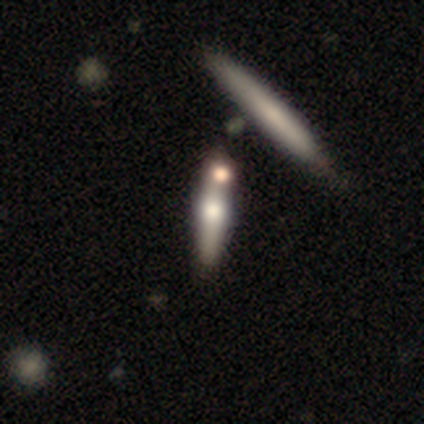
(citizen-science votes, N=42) featured or disk 67%, smooth 33%, star or artifact 0%. Down the decision tree: edge-on disk — yes (89%); edge-on bulge — rounded (88%); merging — none (74%).